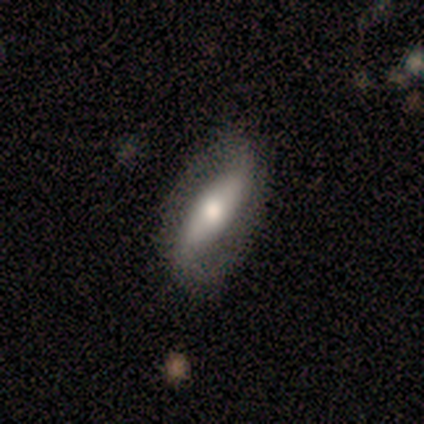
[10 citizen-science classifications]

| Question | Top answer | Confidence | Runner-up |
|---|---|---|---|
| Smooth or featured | smooth | 70% | featured or disk (30%) |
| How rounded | in between | 71% | cigar-shaped (29%) |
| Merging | none | 60% | minor disturbance (30%) |